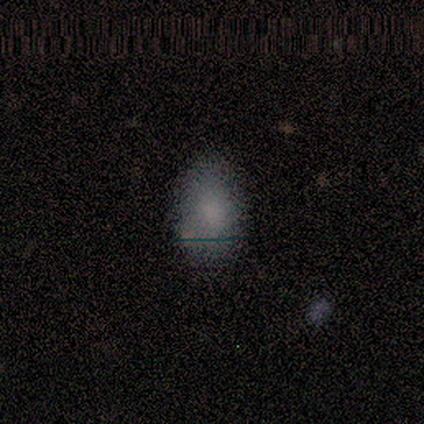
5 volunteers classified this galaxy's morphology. Smooth or featured? smooth (100%)
How rounded? in between (100%)
Merging? none (60%)